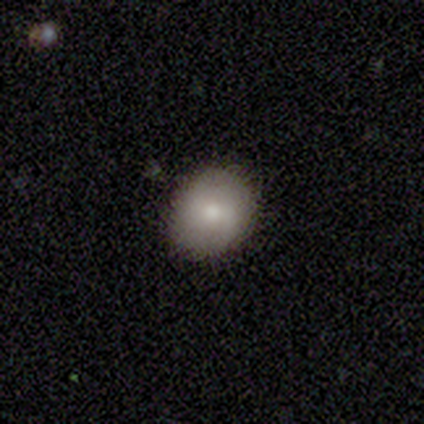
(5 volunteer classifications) Smooth or featured?
  - smooth: 100% *
  - featured or disk: 0%
  - star or artifact: 0%
How rounded?
  - round: 60% *
  - in between: 40%
  - cigar-shaped: 0%
Merging?
  - none: 100% *
  - minor disturbance: 0%
  - major disturbance: 0%
  - merger: 0%